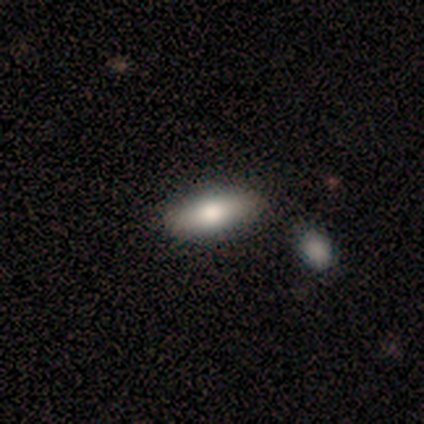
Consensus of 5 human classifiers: smooth 100%, featured or disk 0%, star or artifact 0%. Down the decision tree: how rounded — in between (80%); merging — none (100%).